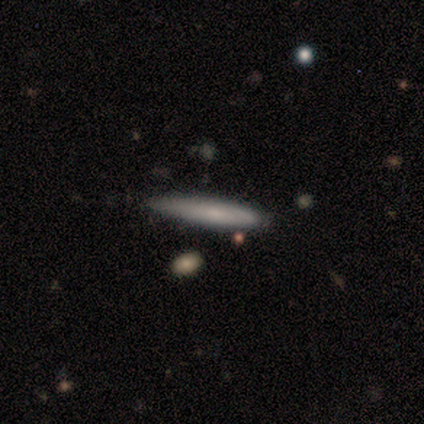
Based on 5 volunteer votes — A smooth galaxy with no disk features (80%) that is cigar-shaped (100%).

Vote fractions:
- Smooth or featured? smooth: 80% / featured or disk: 20% / star or artifact: 0%
- How rounded? cigar-shaped: 100% / round: 0% / in between: 0%
- Merging? none: 60% / minor disturbance: 40% / major disturbance: 0% / merger: 0%